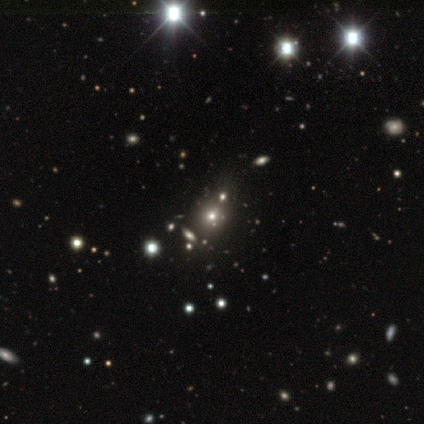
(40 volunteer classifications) Morphology: type=star or artifact (50%).